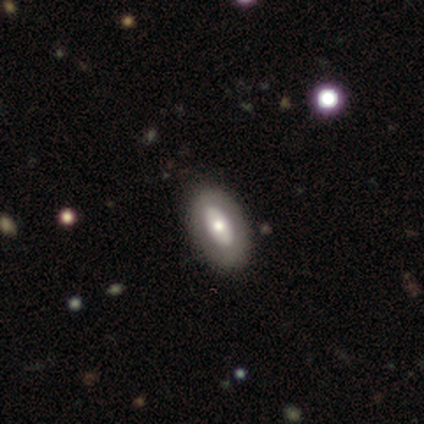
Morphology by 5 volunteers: smooth_or_featured: smooth (p=0.60) [alt: featured or disk p=0.20]
how_rounded: in between (p=1.00)
merging: none (p=0.75) [alt: major disturbance p=0.25]